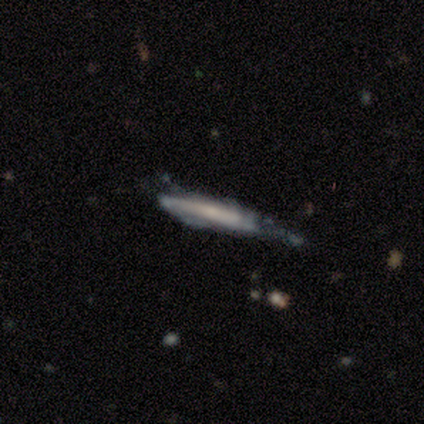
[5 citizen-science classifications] Smooth or featured? smooth (60%)
How rounded? cigar-shaped (100%)
Merging? minor disturbance (60%)